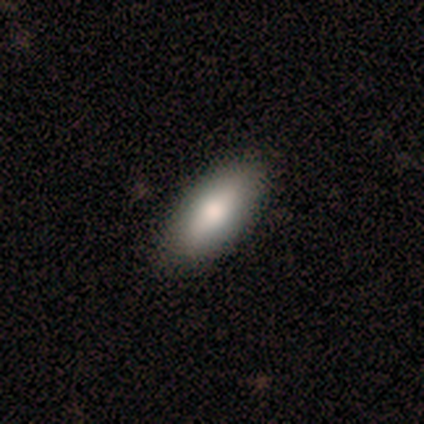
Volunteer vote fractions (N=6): smooth_or_featured: smooth (p=1.00)
how_rounded: in between (p=1.00)
merging: none (p=1.00)